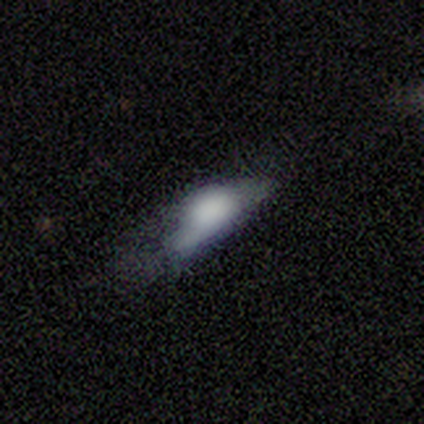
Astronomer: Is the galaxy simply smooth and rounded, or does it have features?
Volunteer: smooth — 80%.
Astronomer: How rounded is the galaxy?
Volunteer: in between — 75%.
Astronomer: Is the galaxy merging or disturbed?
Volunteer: none — 40%, tied with major disturbance at 40%.